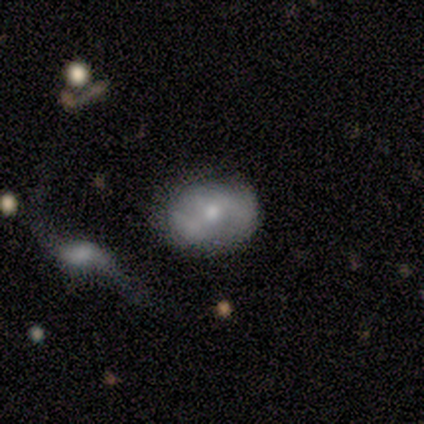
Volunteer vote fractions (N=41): Smooth or featured: featured or disk — 51% (smooth — 41%)
Edge-on disk: no — 100%
Bar: no — 48% (weak — 38%)
Spiral arms: yes — 57% (no — 43%)
Spiral winding: loose — 42% (medium — 33%)
Spiral arm count: can't tell — 50% (2 — 42%)
Bulge size: moderate — 67% (small — 33%)
Merging: none — 55% (minor disturbance — 24%)